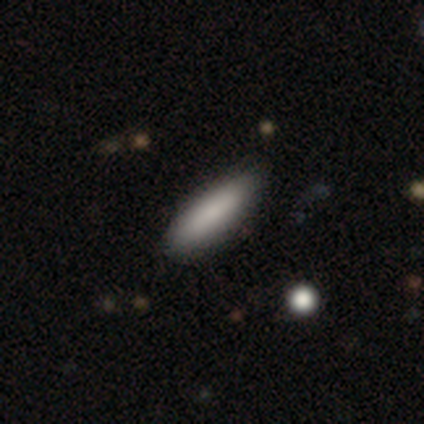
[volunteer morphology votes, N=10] Smooth or featured?
  - smooth: 60% *
  - featured or disk: 30%
  - star or artifact: 10%
How rounded?
  - in between: 67% *
  - cigar-shaped: 33%
  - round: 0%
Merging?
  - none: 78% *
  - minor disturbance: 22%
  - major disturbance: 0%
  - merger: 0%